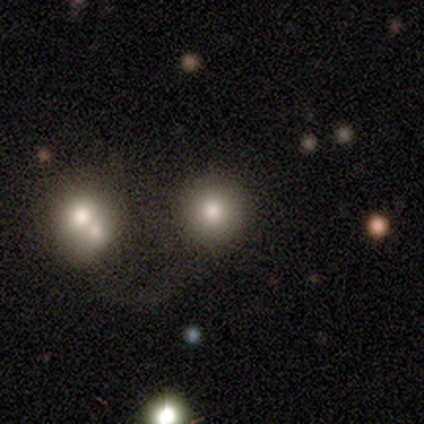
smooth-or-featured: smooth: 100% | featured or disk: 0% | star or artifact: 0%
  how-rounded: round: 100% | in between: 0% | cigar-shaped: 0%
  merging: merger: 60% | none: 40% | minor disturbance: 0% | major disturbance: 0%